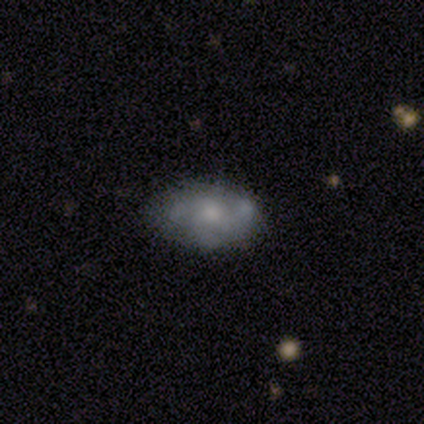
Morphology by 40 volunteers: Smooth or featured? featured or disk (50%)
Edge-on disk? no (95%)
Bar? no (100%)
Spiral arms? yes (58%)
Spiral winding? tight (45%)
Spiral arm count? 3 (55%)
Bulge size? small (37%)
Merging? none (64%)